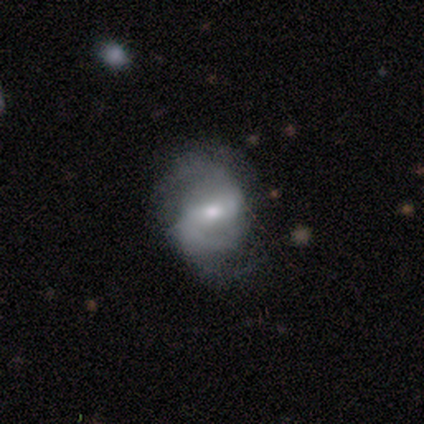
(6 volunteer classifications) This appears to be a featured or disk galaxy (83%) with a weak bar (60%), 2 (75%) medium (50%, tied with loose) spiral arms (80%) and a moderate central bulge (60%). Merging: none (50%).